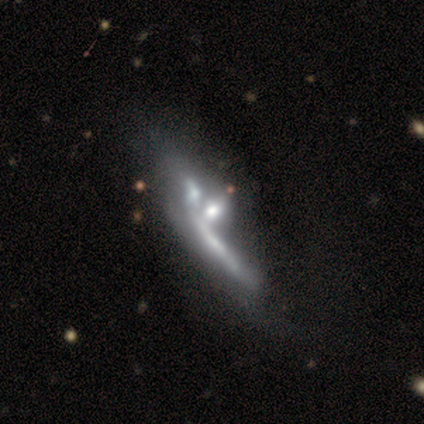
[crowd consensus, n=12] smooth-or-featured: featured or disk: 92% | smooth: 8% | star or artifact: 0%
  disk-edge-on: no: 64% | yes: 36%
    bar: no: 100% | strong: 0% | weak: 0%
    has-spiral-arms: no: 57% | yes: 43%
    bulge-size: moderate: 29% (tied) | small: 29% (tied) | none: 29% (tied) | dominant: 14% | large: 0%
  merging: merger: 50% | none: 17% | minor disturbance: 17% | major disturbance: 17%